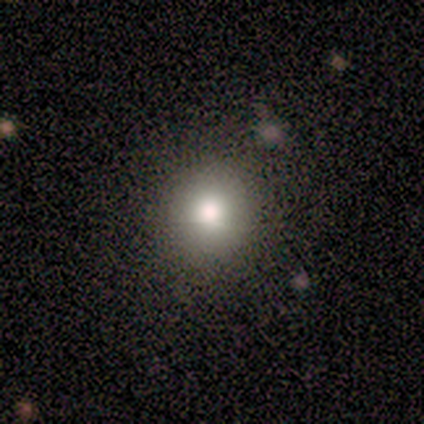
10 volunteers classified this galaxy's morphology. A smooth galaxy with no disk features (90%) that is round (100%). Merging: none (89%).